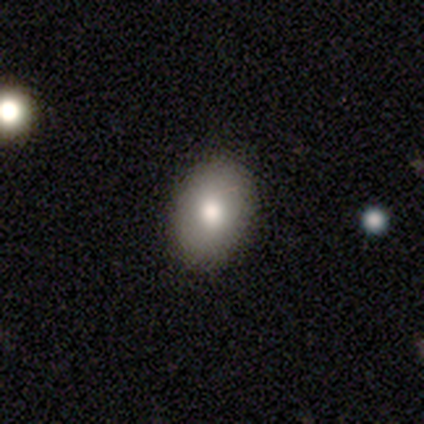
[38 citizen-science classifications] Smooth or featured: smooth — 84% (star or artifact — 11%)
How rounded: in between — 88% (round — 12%)
Merging: none — 88% (minor disturbance — 9%)